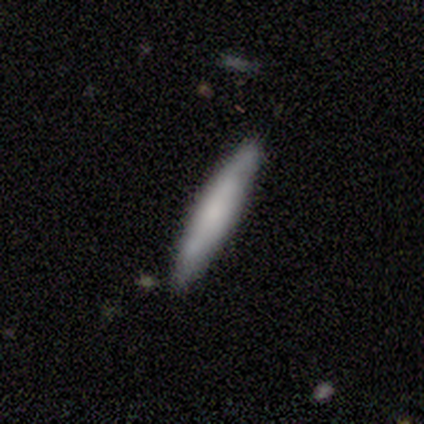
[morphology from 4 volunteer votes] smooth 75%, featured or disk 25%, star or artifact 0%. Down the decision tree: how rounded — cigar-shaped (100%); merging — none (75%).